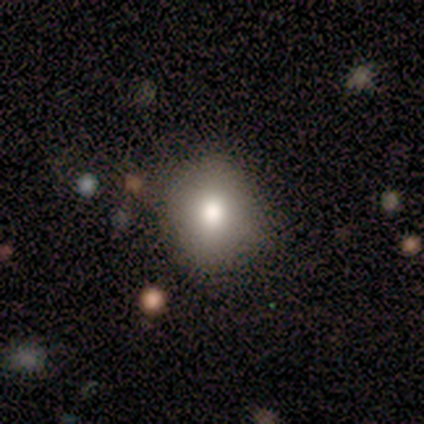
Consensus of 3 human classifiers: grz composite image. It shows a smooth galaxy with no disk features (67%) that is round (50%, tied with in between). Merging: none (67%).